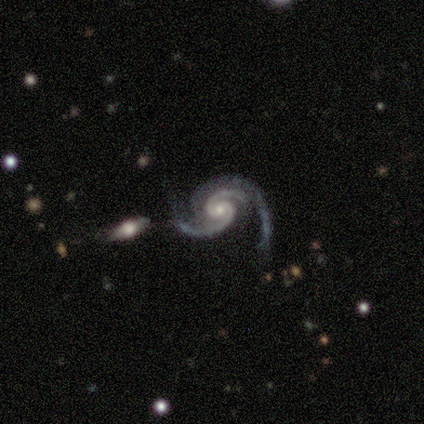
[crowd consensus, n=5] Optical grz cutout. It shows a featured or disk galaxy (100%) with no bar (80%), 2 (100%) medium (80%) spiral arms (100%) and a small central bulge (60%). Merging: none (60%).